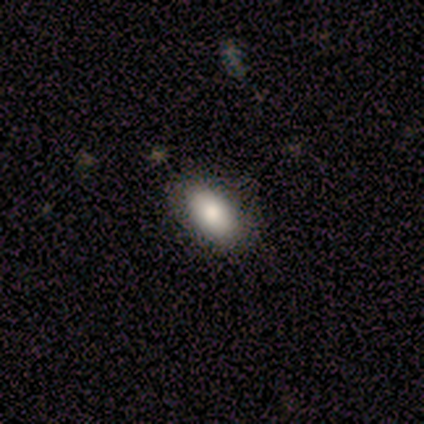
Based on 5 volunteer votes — This appears to be a smooth galaxy with no disk features (100%) that is in between round and cigar-shaped (100%). Merging: none (80%).